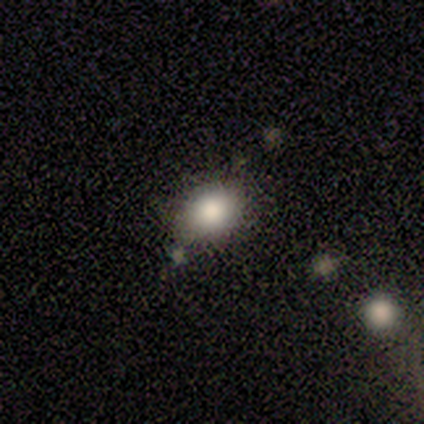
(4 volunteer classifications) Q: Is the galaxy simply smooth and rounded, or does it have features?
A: smooth — 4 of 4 (100%).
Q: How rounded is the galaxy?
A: in between — 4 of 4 (100%).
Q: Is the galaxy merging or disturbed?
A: none — 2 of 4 (50%).